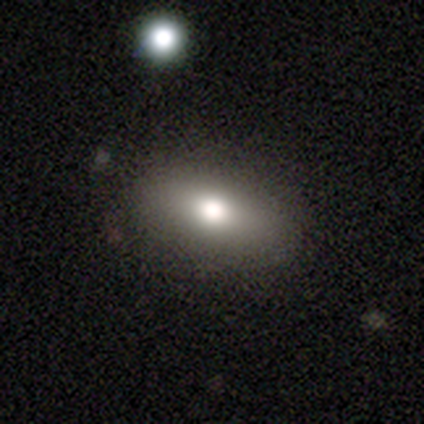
Smooth or featured? smooth (74%)
How rounded? in between (90%)
Merging? none (88%)